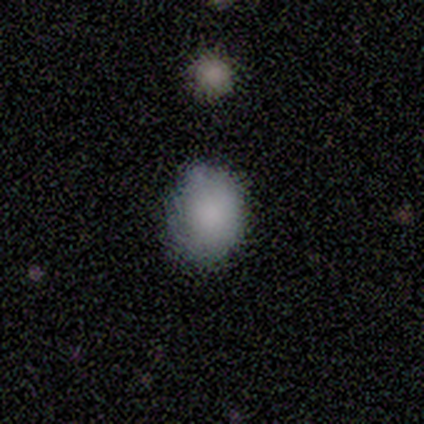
Smooth or featured?
  - smooth: 100% *
  - featured or disk: 0%
  - star or artifact: 0%
How rounded?
  - round: 57% *
  - in between: 43%
  - cigar-shaped: 0%
Merging?
  - none: 86% *
  - minor disturbance: 14%
  - major disturbance: 0%
  - merger: 0%